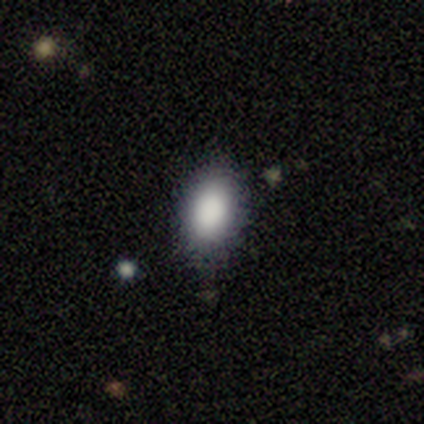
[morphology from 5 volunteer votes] This appears to be a smooth galaxy with no disk features (80%) that is in between round and cigar-shaped (100%). Merging: none (80%).